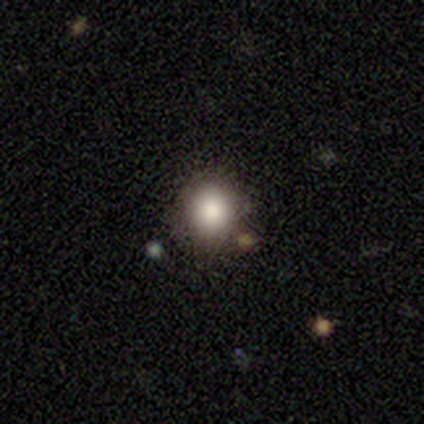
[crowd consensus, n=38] Smooth or featured? smooth (79%)
How rounded? round (87%)
Merging? none (82%)